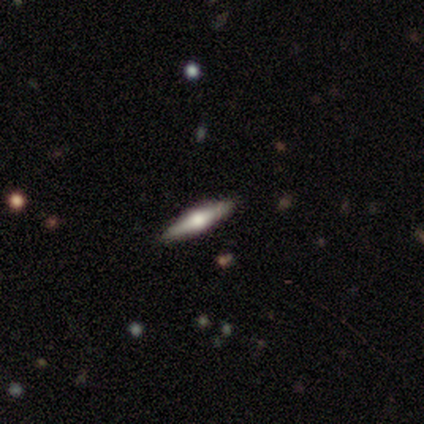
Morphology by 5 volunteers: smooth-or-featured: featured or disk: 80% | smooth: 20% | star or artifact: 0%
  disk-edge-on: yes: 100% | no: 0%
    edge-on-bulge: rounded: 100% | boxy: 0% | none: 0%
  merging: none: 80% | minor disturbance: 20% | major disturbance: 0% | merger: 0%